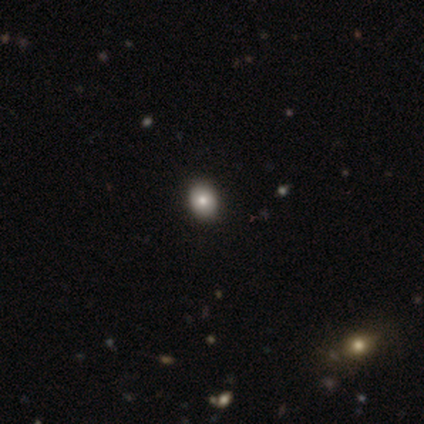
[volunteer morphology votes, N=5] This appears to be a smooth galaxy with no disk features (60%) that is in between round and cigar-shaped (67%). Merging: none (80%).